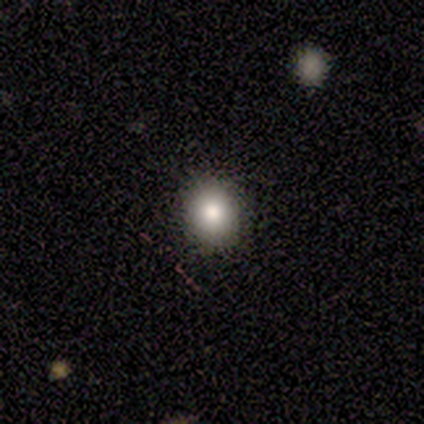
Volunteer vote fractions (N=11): Smooth or featured: smooth — 82% (featured or disk — 9%)
How rounded: round — 89% (in between — 11%)
Merging: none — 100%